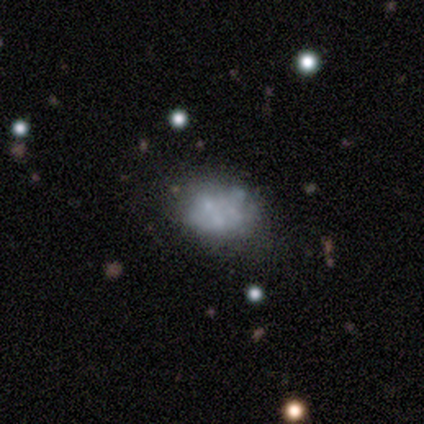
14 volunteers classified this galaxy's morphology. smooth-or-featured: smooth: 57% | featured or disk: 36% | star or artifact: 7%
  how-rounded: in between: 88% | round: 12% | cigar-shaped: 0%
  merging: none: 46% | minor disturbance: 23% | major disturbance: 23% | merger: 8%